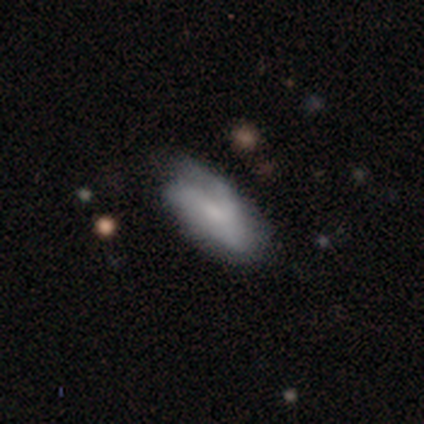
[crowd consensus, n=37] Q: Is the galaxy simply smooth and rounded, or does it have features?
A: smooth — 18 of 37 (49%).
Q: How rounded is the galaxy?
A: in between — 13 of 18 (72%).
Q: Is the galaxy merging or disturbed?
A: none — 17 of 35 (49%).